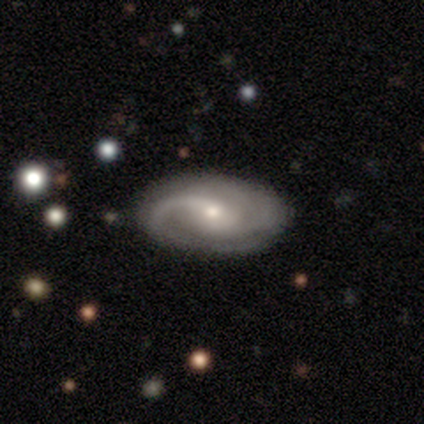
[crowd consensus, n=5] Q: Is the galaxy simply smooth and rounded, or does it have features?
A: featured or disk — 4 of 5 (80%).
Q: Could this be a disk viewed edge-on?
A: no — 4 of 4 (100%).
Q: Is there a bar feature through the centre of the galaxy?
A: no — 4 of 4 (100%).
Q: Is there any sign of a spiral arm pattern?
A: yes — 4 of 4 (100%).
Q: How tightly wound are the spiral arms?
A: tight — 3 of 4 (75%).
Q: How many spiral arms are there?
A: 2 — 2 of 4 (50%).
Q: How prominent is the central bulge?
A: small — 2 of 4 (50%).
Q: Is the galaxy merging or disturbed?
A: none — 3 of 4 (75%).